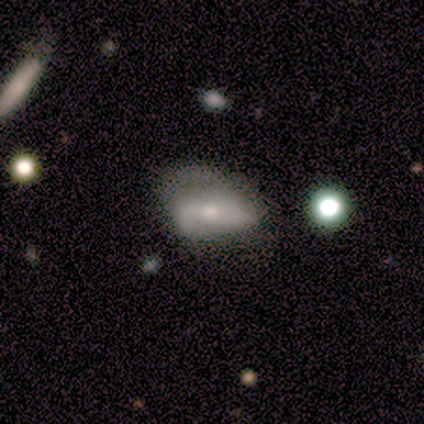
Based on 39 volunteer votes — A featured or disk galaxy (49%) with no bar (47%), 2 (77%) medium (54%) spiral arms (76%) and a small central bulge (53%). Merging: none (51%).